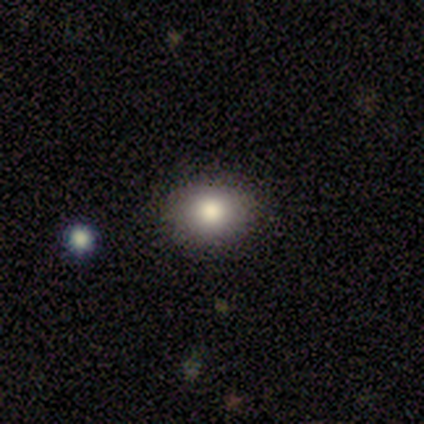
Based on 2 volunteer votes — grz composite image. It shows a smooth galaxy with no disk features (50%, tied with star or artifact) that is in between round and cigar-shaped (100%). Merging: none (100%).